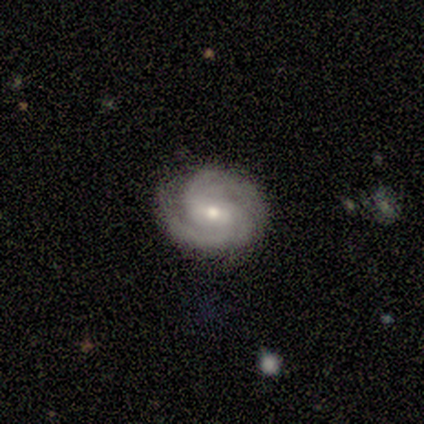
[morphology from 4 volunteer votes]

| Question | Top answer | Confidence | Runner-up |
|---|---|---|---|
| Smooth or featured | featured or disk | 100% | — |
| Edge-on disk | no | 100% | — |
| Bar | no | 50% | strong (25%) |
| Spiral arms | yes | 100% | — |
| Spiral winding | tight | 100% | — |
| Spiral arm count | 3 | 75% | can't tell (25%) |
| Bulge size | moderate | 50% | tied: small (50%) |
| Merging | none | 75% | minor disturbance (25%) |